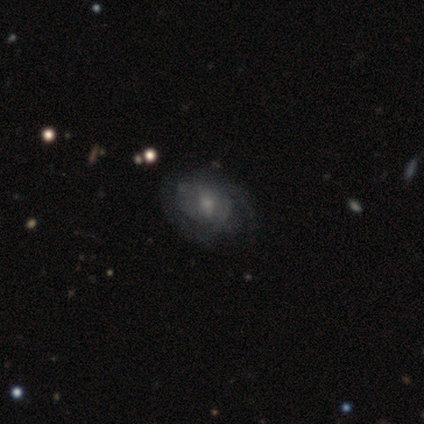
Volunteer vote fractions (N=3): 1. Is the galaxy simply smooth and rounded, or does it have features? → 67% smooth, 33% featured or disk, 0% star or artifact.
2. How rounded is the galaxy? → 50% round (tied), 50% in between (tied), 0% cigar-shaped.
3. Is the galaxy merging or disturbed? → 100% none, 0% minor disturbance, 0% major disturbance, 0% merger.